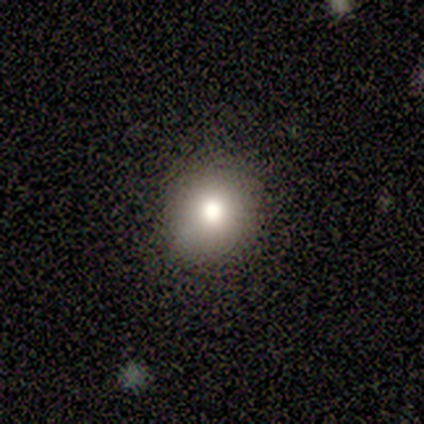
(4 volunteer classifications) A smooth galaxy with no disk features (100%) that is round (75%).

Vote fractions:
- Smooth or featured? smooth: 100% / featured or disk: 0% / star or artifact: 0%
- How rounded? round: 75% / in between: 25% / cigar-shaped: 0%
- Merging? none: 75% / minor disturbance: 25% / major disturbance: 0% / merger: 0%